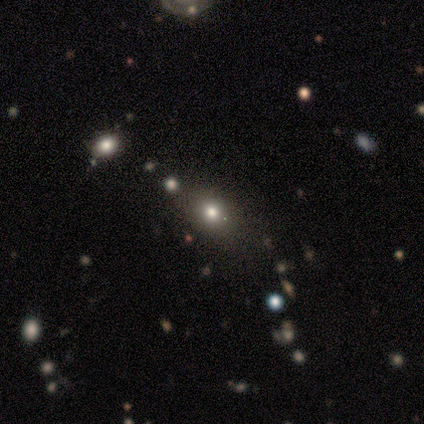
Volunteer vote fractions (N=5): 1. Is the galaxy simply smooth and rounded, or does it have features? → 80% smooth, 20% star or artifact, 0% featured or disk.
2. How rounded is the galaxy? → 75% round, 25% in between, 0% cigar-shaped.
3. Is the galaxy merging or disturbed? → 100% none, 0% minor disturbance, 0% major disturbance, 0% merger.